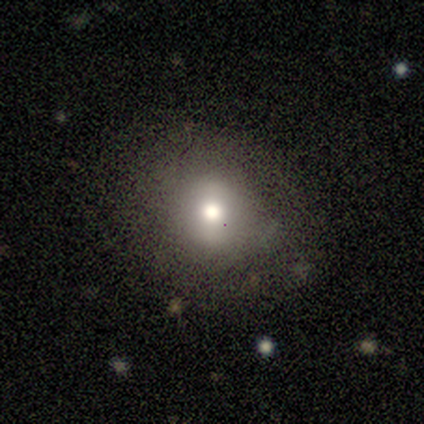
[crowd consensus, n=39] This is likely a smooth galaxy (74%). How rounded: clearly round (90%). Merging: clearly none (82%).